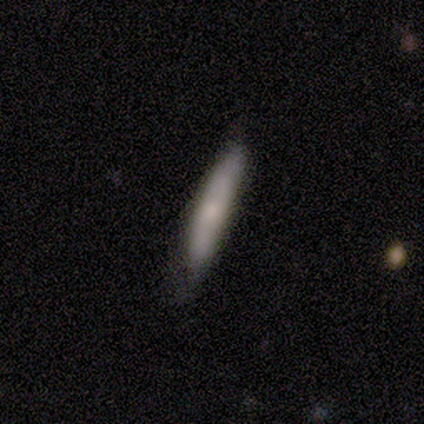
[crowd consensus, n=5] This is likely a smooth galaxy (60%). How rounded: clearly cigar-shaped (100%). Merging: clearly none (80%).